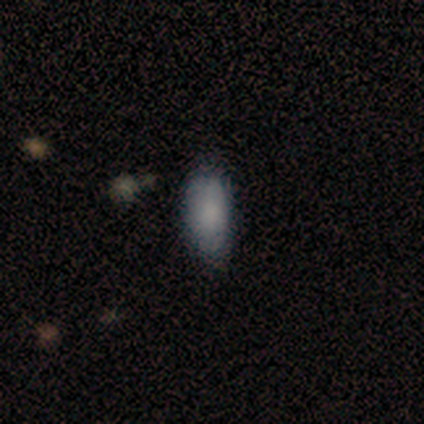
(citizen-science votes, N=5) smooth_or_featured: smooth (p=0.40) [tied with: star or artifact p=0.40]
how_rounded: in between (p=1.00)
merging: none (p=0.33) [tied with: minor disturbance p=0.33, major disturbance p=0.33]